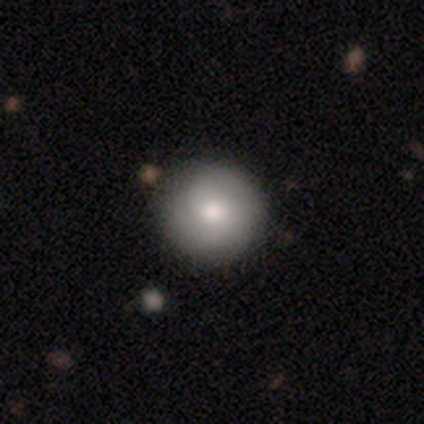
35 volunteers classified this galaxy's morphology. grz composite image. It shows a smooth galaxy with no disk features (71%) that is round (96%). Merging: none (66%).